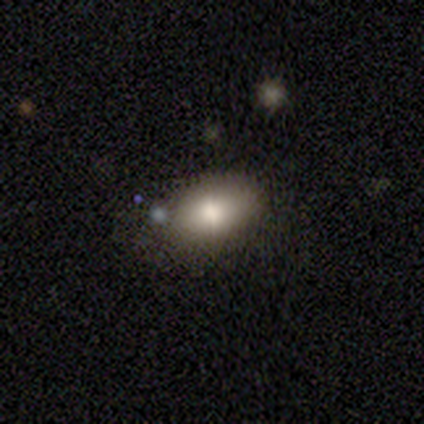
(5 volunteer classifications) Smooth or featured? smooth (80%)
How rounded? in between (75%)
Merging? none (80%)